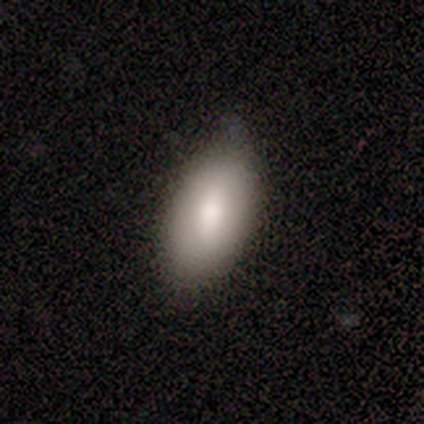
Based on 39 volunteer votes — Smooth or featured: smooth — 85% (featured or disk — 13%)
How rounded: in between — 94% (cigar-shaped — 6%)
Merging: none — 76% (minor disturbance — 21%)